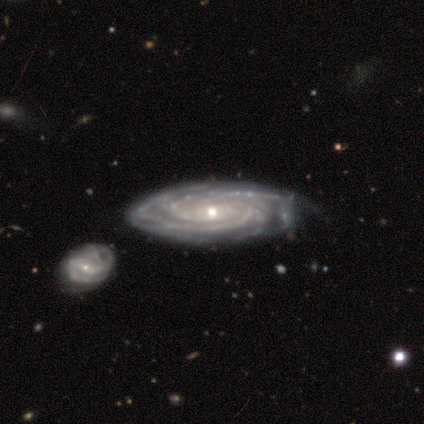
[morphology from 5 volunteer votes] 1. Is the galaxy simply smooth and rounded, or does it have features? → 100% featured or disk, 0% smooth, 0% star or artifact.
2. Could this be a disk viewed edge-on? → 100% no, 0% yes.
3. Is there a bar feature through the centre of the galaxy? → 100% no, 0% strong, 0% weak.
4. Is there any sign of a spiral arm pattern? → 100% yes, 0% no.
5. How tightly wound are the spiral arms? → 80% tight, 20% medium, 0% loose.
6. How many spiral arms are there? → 60% more than 4, 20% 2, 20% 4, 0% 1, 0% 3, 0% can't tell.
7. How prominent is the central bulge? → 80% small, 20% moderate, 0% dominant, 0% large, 0% none.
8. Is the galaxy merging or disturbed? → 40% none (tied), 40% minor disturbance (tied), 20% merger, 0% major disturbance.